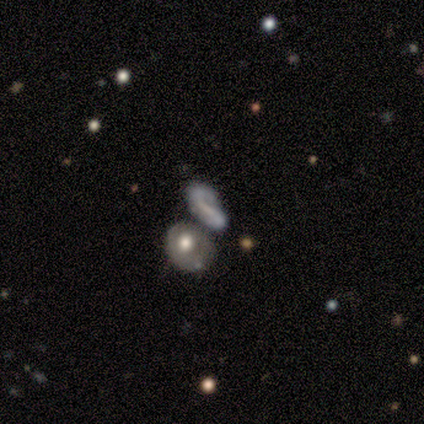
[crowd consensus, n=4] Morphology: type=featured or disk (50%); edge-on=no (100%); bar=strong (50%, tied with no); spiral arms=no (100%); bulge=moderate (50%, tied with none); merging=none (33%, tied with minor disturbance and merger).